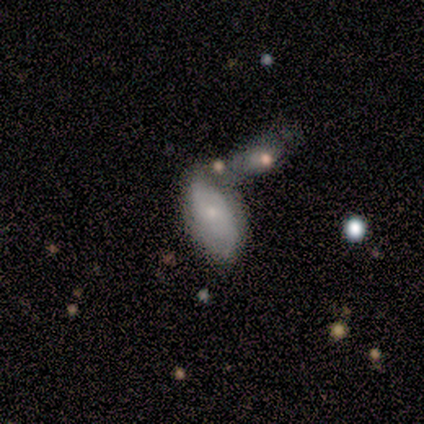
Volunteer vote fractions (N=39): Smooth or featured?
  - featured or disk: 51% *
  - smooth: 46%
  - star or artifact: 3%
Edge-on disk?
  - no: 100% *
  - yes: 0%
Bar?
  - no: 75% *
  - weak: 25%
  - strong: 0%
Spiral arms?
  - yes: 50% * (tied)
  - no: 50% * (tied)
Spiral winding?
  - tight: 40% *
  - medium: 30%
  - loose: 30%
Spiral arm count?
  - can't tell: 50% *
  - 2: 30%
  - 1: 20%
  - 3: 0%
  - 4: 0%
  - more than 4: 0%
Bulge size?
  - small: 70% *
  - moderate: 15%
  - none: 15%
  - dominant: 0%
  - large: 0%
Merging?
  - merger: 42% *
  - none: 29%
  - minor disturbance: 24%
  - major disturbance: 5%